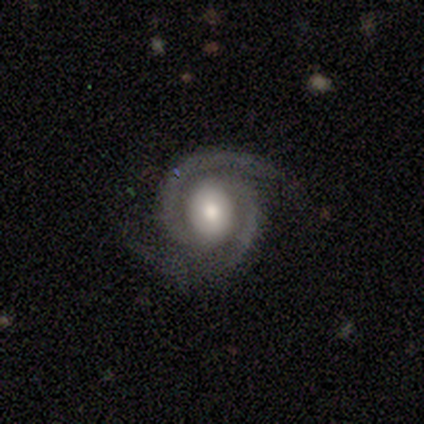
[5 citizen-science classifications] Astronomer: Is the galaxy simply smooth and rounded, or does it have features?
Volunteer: featured or disk — 100%.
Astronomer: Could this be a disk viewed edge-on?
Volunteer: no — 100%.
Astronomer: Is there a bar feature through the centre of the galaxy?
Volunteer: weak — 80%.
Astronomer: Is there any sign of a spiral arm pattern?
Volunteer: yes — 100%.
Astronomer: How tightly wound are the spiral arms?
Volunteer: tight — 60%.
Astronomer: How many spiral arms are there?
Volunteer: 2 — 100%.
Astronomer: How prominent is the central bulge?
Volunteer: moderate — 100%.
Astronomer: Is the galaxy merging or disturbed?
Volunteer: none — 80%.